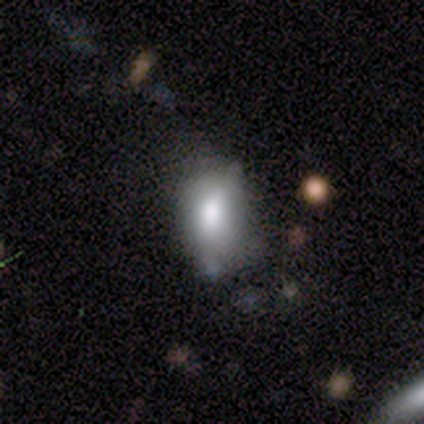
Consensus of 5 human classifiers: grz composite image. It shows a smooth galaxy with no disk features (60%) that is in between round and cigar-shaped (100%). Merging: minor disturbance (40%).